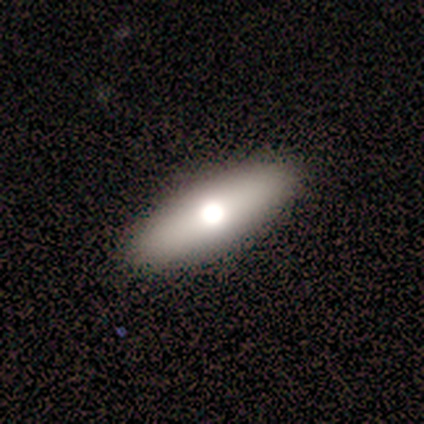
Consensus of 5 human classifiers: smooth 60%, featured or disk 20%, star or artifact 20%. Down the decision tree: how rounded — in between (100%); merging — none (100%).